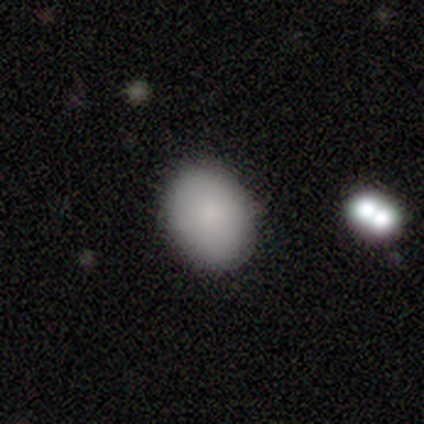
Smooth or featured? 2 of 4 (50%) said smooth. How rounded? 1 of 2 (50%, tied with in between) said round. Merging? 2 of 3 (67%) said none.